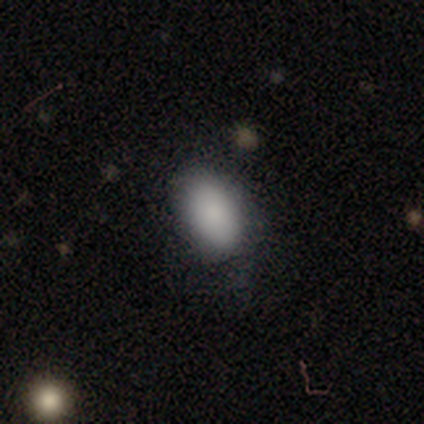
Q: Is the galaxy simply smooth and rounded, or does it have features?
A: smooth — 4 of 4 (100%).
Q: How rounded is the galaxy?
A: in between — 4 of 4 (100%).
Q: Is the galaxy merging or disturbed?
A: none — 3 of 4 (75%).